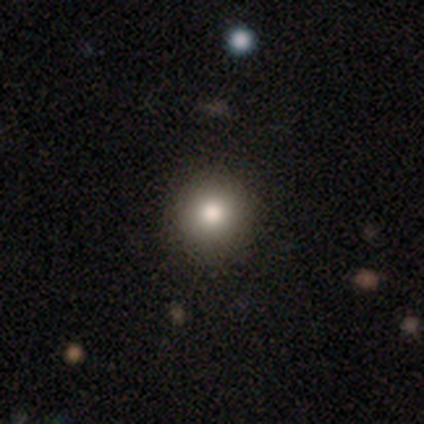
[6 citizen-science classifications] Smooth or featured?
  - smooth: 100% *
  - featured or disk: 0%
  - star or artifact: 0%
How rounded?
  - round: 100% *
  - in between: 0%
  - cigar-shaped: 0%
Merging?
  - none: 83% *
  - minor disturbance: 17%
  - major disturbance: 0%
  - merger: 0%